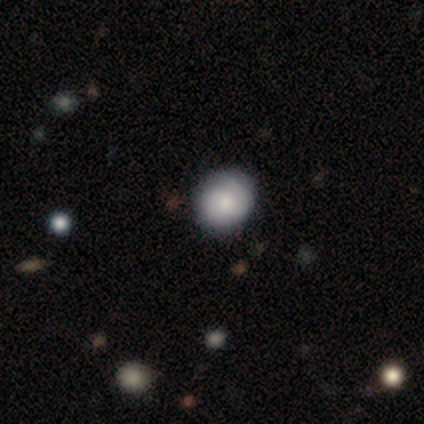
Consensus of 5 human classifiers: Smooth or featured? 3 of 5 (60%) said smooth. How rounded? 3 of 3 (100%) said round. Merging? 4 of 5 (80%) said none.